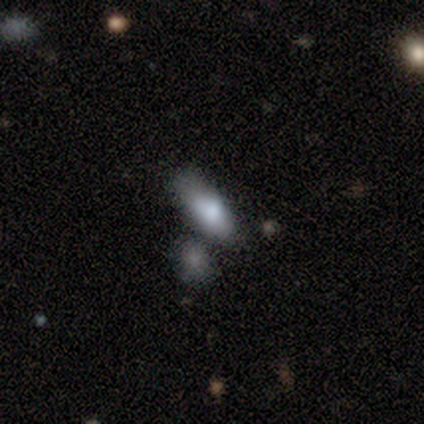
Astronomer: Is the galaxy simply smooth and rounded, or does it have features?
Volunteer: smooth — 100%.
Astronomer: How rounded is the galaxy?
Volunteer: in between — 100%.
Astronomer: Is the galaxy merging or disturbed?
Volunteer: none — 75%.